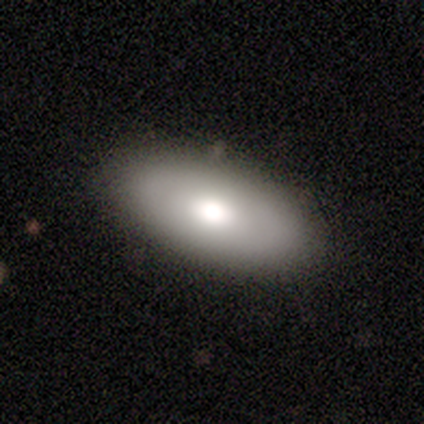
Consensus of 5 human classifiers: Smooth or featured: smooth — 80% (featured or disk — 20%)
How rounded: in between — 100%
Merging: none — 100%